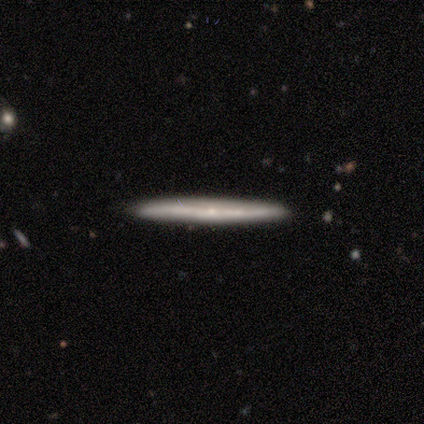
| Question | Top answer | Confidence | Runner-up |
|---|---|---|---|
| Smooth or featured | featured or disk | 60% | smooth (20%) |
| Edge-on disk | yes | 100% | — |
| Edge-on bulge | boxy | 33% | tied: none (33%), rounded (33%) |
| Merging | none | 75% | minor disturbance (25%) |